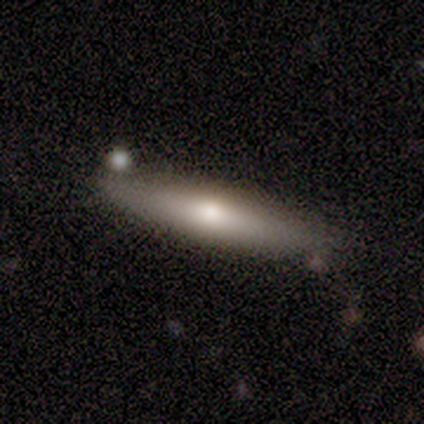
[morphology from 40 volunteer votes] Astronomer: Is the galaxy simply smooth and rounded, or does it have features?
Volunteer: smooth — 55% (runner-up: featured or disk, 40%).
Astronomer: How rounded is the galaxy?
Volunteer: cigar-shaped — 100%.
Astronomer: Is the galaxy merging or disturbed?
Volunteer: none — 74%.